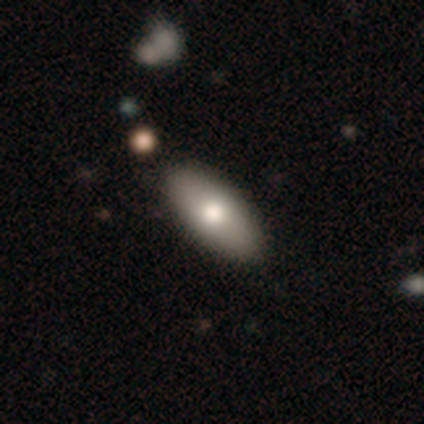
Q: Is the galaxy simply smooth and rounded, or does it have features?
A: smooth — 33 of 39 (85%).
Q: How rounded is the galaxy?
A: in between — 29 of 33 (88%).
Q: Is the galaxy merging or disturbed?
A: none — 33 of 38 (87%).